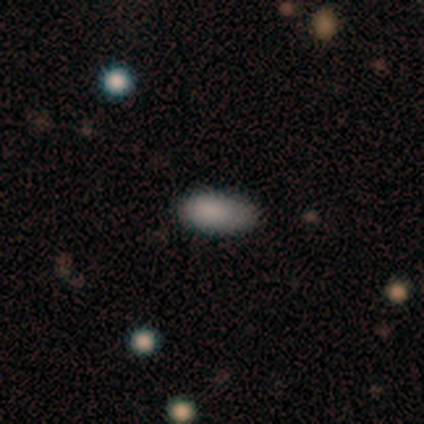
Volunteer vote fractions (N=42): This appears to be a smooth galaxy with no disk features (88%) that is in between round and cigar-shaped (89%). Merging: none (85%).